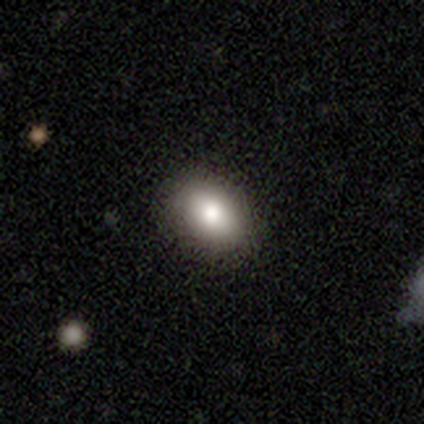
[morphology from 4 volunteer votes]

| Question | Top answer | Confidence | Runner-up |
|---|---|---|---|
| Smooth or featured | smooth | 100% | — |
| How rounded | in between | 100% | — |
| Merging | none | 100% | — |